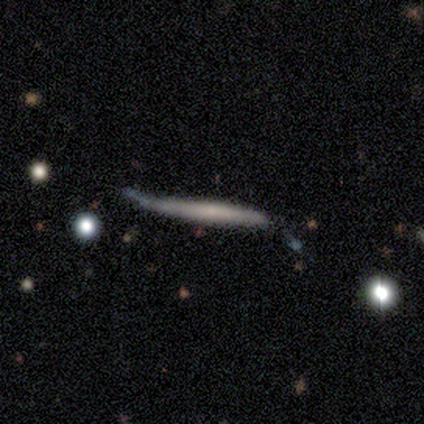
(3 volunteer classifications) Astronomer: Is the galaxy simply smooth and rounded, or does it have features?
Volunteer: smooth — 67%.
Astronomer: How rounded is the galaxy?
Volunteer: cigar-shaped — 100%.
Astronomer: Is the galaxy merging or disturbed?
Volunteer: none — 67%.